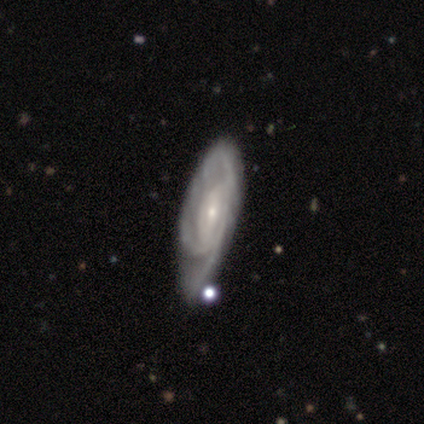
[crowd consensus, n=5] smooth-or-featured: featured or disk: 100% | smooth: 0% | star or artifact: 0%
  disk-edge-on: no: 80% | yes: 20%
    bar: no: 75% | weak: 25% | strong: 0%
    has-spiral-arms: yes: 100% | no: 0%
      spiral-winding: tight: 75% | medium: 25% | loose: 0%
      spiral-arm-count: can't tell: 50% | 2: 25% | 3: 25% | 1: 0% | 4: 0% | more than 4: 0%
    bulge-size: small: 75% | large: 25% | dominant: 0% | moderate: 0% | none: 0%
  merging: none: 80% | minor disturbance: 20% | major disturbance: 0% | merger: 0%